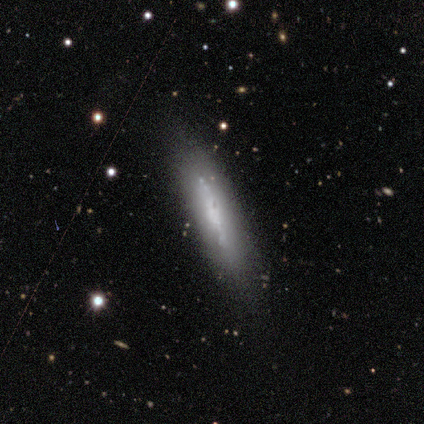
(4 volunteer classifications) smooth-or-featured: smooth: 75% | featured or disk: 25% | star or artifact: 0%
  how-rounded: cigar-shaped: 100% | round: 0% | in between: 0%
  merging: none: 100% | minor disturbance: 0% | major disturbance: 0% | merger: 0%